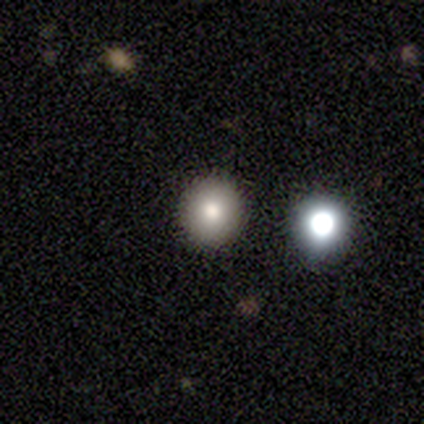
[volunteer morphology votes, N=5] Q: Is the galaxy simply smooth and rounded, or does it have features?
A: smooth — 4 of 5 (80%).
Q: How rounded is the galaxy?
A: round — 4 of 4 (100%).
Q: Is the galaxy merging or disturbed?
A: none — 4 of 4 (100%).